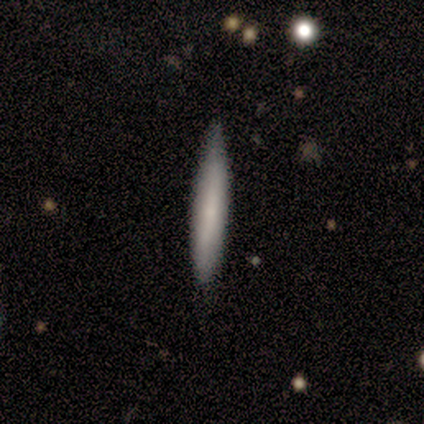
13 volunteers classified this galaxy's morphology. Volunteers were most divided on "how rounded": cigar-shaped: 70%, in between: 30%, round: 0%. More confident: merging — none (92%); smooth or featured — smooth (77%).